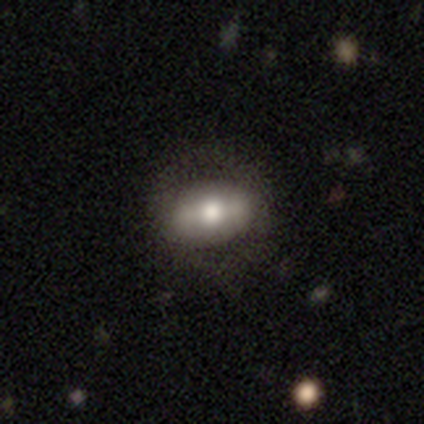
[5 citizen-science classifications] Q: Smooth or featured?
A: smooth (100%)
Q: How rounded?
A: in between (100%)
Q: Merging?
A: none (80%); runner-up: minor disturbance (20%)